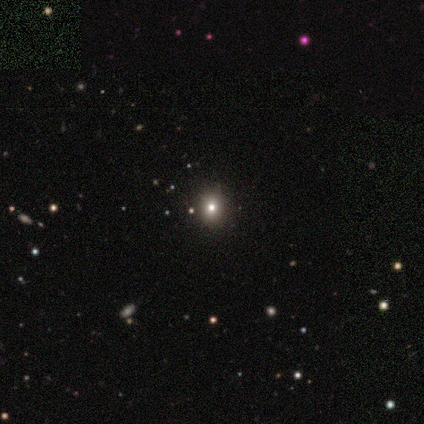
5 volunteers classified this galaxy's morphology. Q: Smooth or featured?
A: star or artifact (80%); runner-up: smooth (20%)